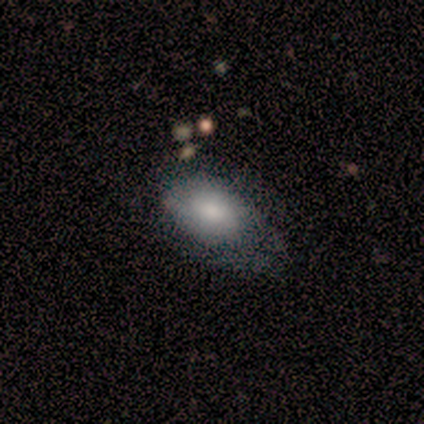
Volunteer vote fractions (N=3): Smooth or featured? smooth (67%)
How rounded? round (50%, tied with in between)
Merging? minor disturbance (67%)